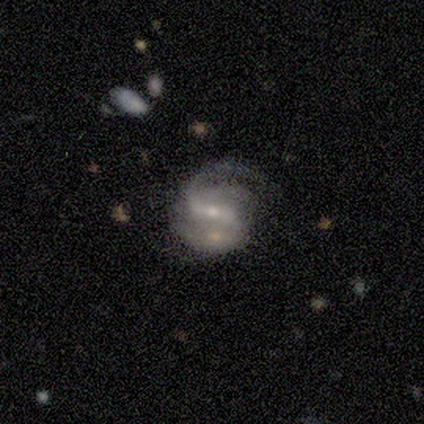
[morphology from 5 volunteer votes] featured or disk 100%, smooth 0%, star or artifact 0%. Down the decision tree: edge-on disk — no (100%); bar — weak (100%); spiral arms — yes (100%); spiral arm count — 2 (80%); spiral winding — medium (60%); bulge size — small (80%); merging — none (60%).